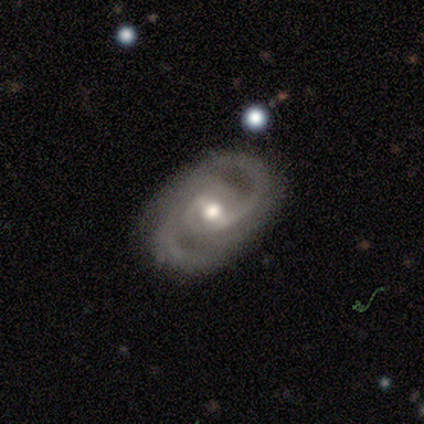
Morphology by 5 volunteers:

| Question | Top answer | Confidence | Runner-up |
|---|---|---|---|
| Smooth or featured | featured or disk | 100% | — |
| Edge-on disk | no | 100% | — |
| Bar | weak | 80% | strong (20%) |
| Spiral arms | yes | 100% | — |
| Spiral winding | medium | 80% | tight (20%) |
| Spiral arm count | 2 | 100% | — |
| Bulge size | moderate | 80% | large (20%) |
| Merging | none | 60% | minor disturbance (20%) |